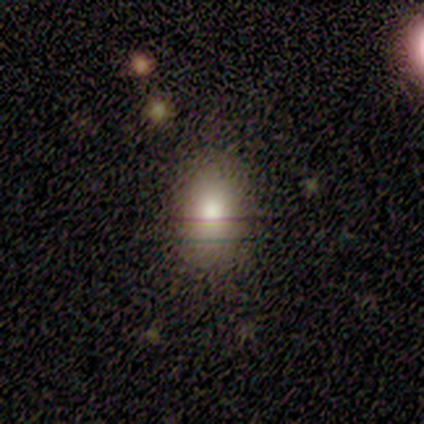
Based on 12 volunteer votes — smooth_or_featured: smooth (p=0.92) [alt: star or artifact p=0.08]
how_rounded: in between (p=0.73) [alt: round p=0.18]
merging: none (p=0.73) [alt: minor disturbance p=0.18]